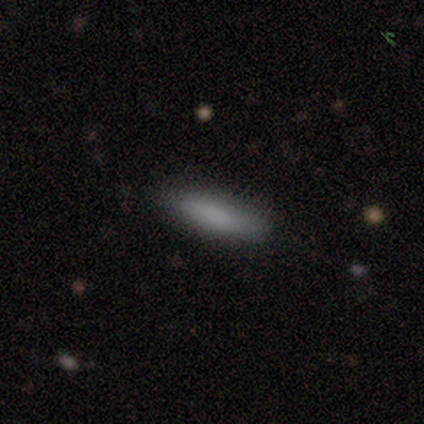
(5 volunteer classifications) Morphology: type=smooth (100%); roundness=cigar-shaped (60%); merging=none (60%).